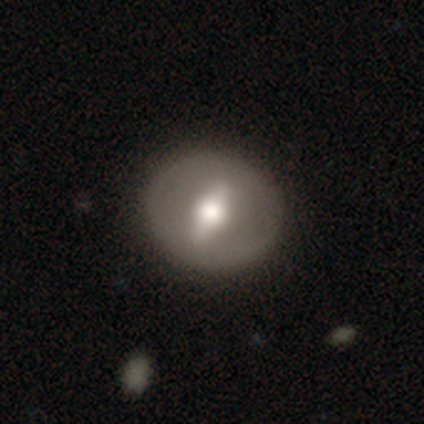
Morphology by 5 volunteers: A featured or disk galaxy (80%) with a strong bar (100%), no spiral arms (100%) and a moderate central bulge (67%). Merging: none (100%).